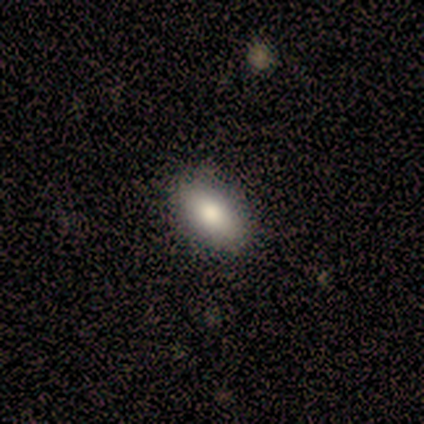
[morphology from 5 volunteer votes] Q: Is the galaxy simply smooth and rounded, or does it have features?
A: smooth — 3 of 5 (60%).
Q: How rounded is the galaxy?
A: in between — 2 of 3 (67%).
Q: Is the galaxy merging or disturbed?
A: none — 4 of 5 (80%).